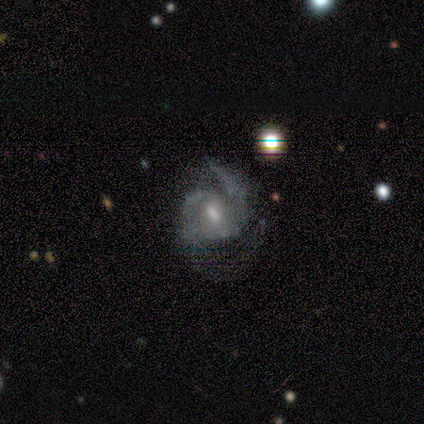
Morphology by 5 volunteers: smooth-or-featured: featured or disk: 80% | smooth: 20% | star or artifact: 0%
  disk-edge-on: no: 100% | yes: 0%
    bar: weak: 50% (tied) | no: 50% (tied) | strong: 0%
    has-spiral-arms: yes: 75% | no: 25%
      spiral-winding: medium: 67% | loose: 33% | tight: 0%
      spiral-arm-count: 3: 67% | 2: 33% | 1: 0% | 4: 0% | more than 4: 0% | can't tell: 0%
    bulge-size: moderate: 50% (tied) | small: 50% (tied) | dominant: 0% | large: 0% | none: 0%
  merging: none: 60% | major disturbance: 40% | minor disturbance: 0% | merger: 0%